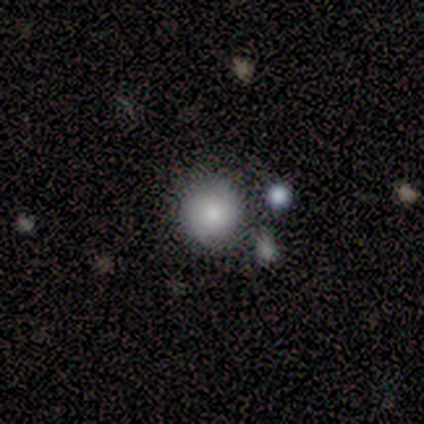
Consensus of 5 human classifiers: A smooth galaxy with no disk features (60%) that is round (100%). Merging: none (80%).